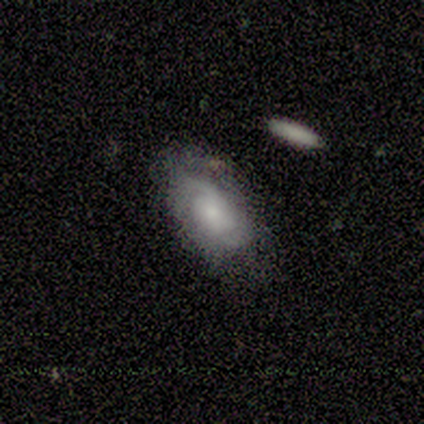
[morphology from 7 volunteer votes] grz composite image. It shows a featured or disk galaxy (100%) with no bar (67%), 2 (83%) tight (50%) spiral arms (100%) and a small central bulge (50%). Merging: none (86%).